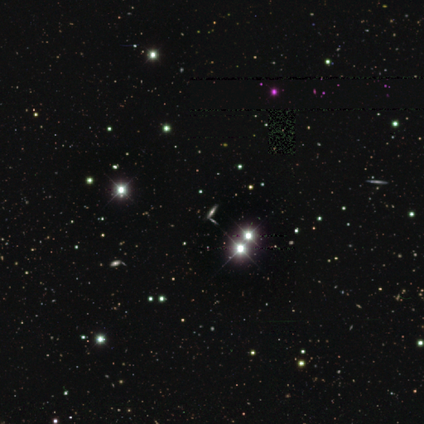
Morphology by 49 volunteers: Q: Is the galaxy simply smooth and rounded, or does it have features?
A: featured or disk — 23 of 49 (47%).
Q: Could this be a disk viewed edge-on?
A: yes — 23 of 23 (100%).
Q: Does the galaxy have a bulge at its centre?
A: rounded — 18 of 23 (78%).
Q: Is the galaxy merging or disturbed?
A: none — 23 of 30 (77%).